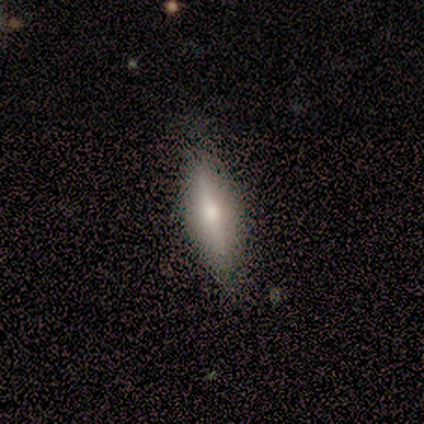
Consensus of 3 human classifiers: Smooth or featured? featured or disk (67%)
Edge-on disk? yes (100%)
Edge-on bulge? rounded (100%)
Merging? none (100%)